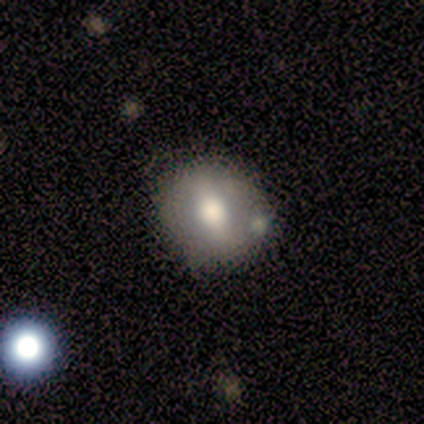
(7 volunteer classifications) A smooth galaxy with no disk features (43%, tied with featured or disk) that is round (100%).

Vote fractions:
- Smooth or featured? smooth: 43% (tied) / featured or disk: 43% (tied) / star or artifact: 14%
- How rounded? round: 100% / in between: 0% / cigar-shaped: 0%
- Merging? none: 83% / minor disturbance: 17% / major disturbance: 0% / merger: 0%